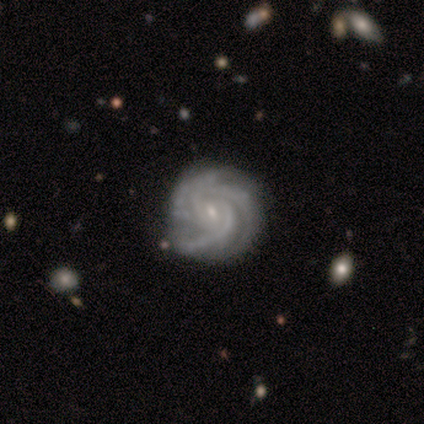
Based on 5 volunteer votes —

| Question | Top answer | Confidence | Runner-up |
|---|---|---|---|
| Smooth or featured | featured or disk | 100% | — |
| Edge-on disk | no | 100% | — |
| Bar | weak | 80% | no (20%) |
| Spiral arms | yes | 100% | — |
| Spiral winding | tight | 80% | medium (20%) |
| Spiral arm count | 3 | 40% | 2 (20%) |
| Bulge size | small | 80% | moderate (20%) |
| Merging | none | 80% | minor disturbance (20%) |